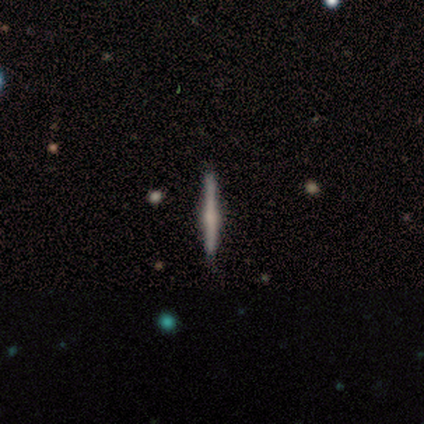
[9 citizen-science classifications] Q: Smooth or featured?
A: featured or disk (89%); runner-up: smooth (11%)
Q: Edge-on disk?
A: yes (88%); runner-up: no (12%)
Q: Edge-on bulge?
A: rounded (86%); runner-up: none (14%)
Q: Merging?
A: none (100%)